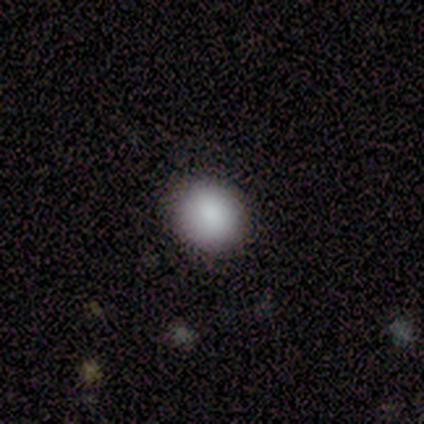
smooth-or-featured: smooth: 100% | featured or disk: 0% | star or artifact: 0%
  how-rounded: round: 100% | in between: 0% | cigar-shaped: 0%
  merging: none: 100% | minor disturbance: 0% | major disturbance: 0% | merger: 0%